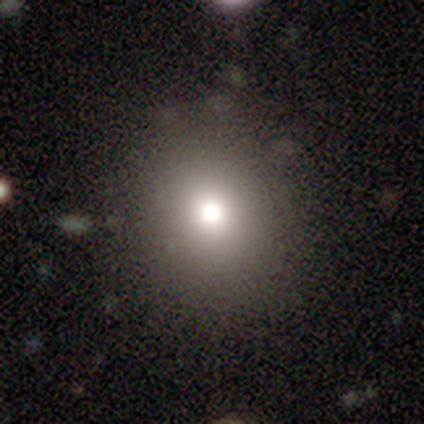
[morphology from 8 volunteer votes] smooth_or_featured: smooth (p=0.75) [alt: star or artifact p=0.25]
how_rounded: round (p=0.67) [alt: in between p=0.33]
merging: none (p=0.83) [alt: minor disturbance p=0.17]